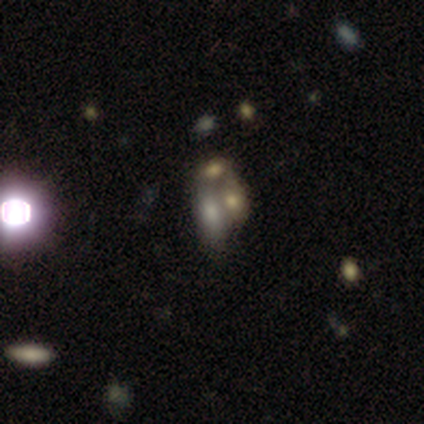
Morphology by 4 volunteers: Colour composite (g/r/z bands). It shows a featured or disk galaxy (75%) with no bar (100%), no spiral arms (100%) and no central bulge (67%). Merging: merger (50%).